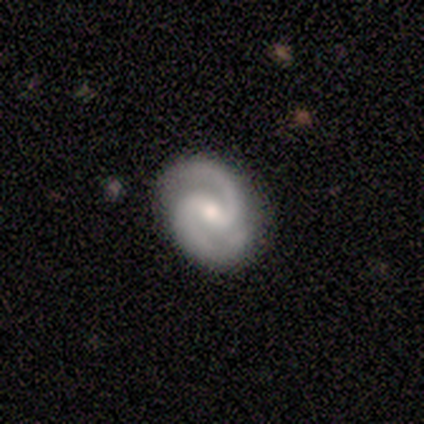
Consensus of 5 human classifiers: Overall: featured or disk (80%). Edge-on disk: no (100%). Bar: weak (50%; strong 25%). Spiral arms: yes (100%). Spiral arm count: 2 (50%; more than 4 25%). Spiral winding: tight (75%). Bulge size: moderate (50%, tied with small). Merging: none (100%).